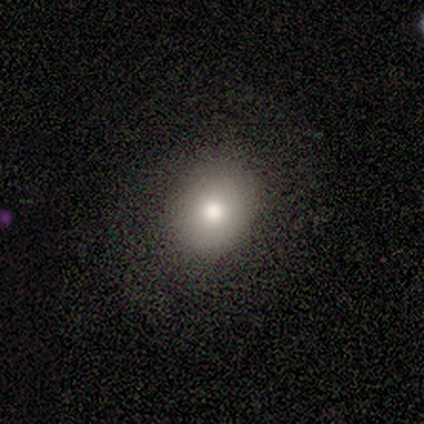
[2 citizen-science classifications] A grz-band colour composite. It shows a smooth galaxy with no disk features (100%) that is round (50%, tied with in between). Merging: none (100%).